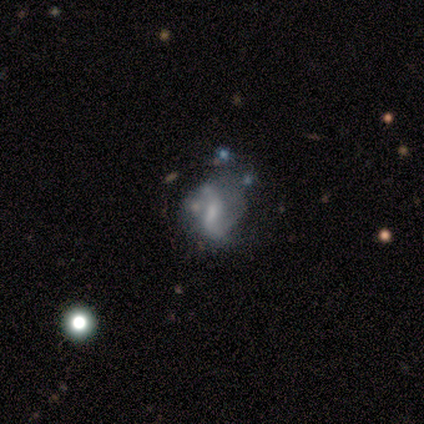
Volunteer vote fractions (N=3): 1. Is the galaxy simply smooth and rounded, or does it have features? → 100% featured or disk, 0% smooth, 0% star or artifact.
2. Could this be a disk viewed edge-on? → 100% no, 0% yes.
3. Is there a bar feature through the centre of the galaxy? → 100% weak, 0% strong, 0% no.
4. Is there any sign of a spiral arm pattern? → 100% yes, 0% no.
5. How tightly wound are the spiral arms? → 100% loose, 0% tight, 0% medium.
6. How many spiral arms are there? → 100% 2, 0% 1, 0% 3, 0% 4, 0% more than 4, 0% can't tell.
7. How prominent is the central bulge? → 33% large (tied), 33% small (tied), 33% none (tied), 0% dominant, 0% moderate.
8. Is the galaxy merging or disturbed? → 33% minor disturbance (tied), 33% major disturbance (tied), 33% merger (tied), 0% none.